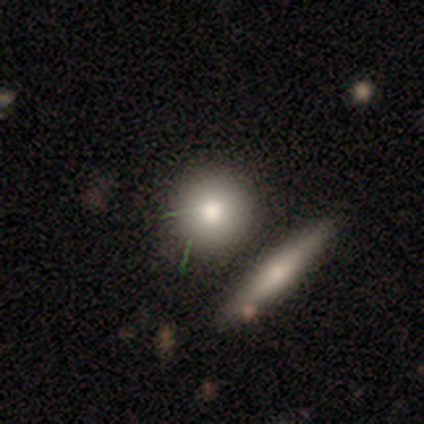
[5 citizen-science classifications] Smooth or featured: smooth — 100%
How rounded: round — 100%
Merging: none — 80% (merger — 20%)